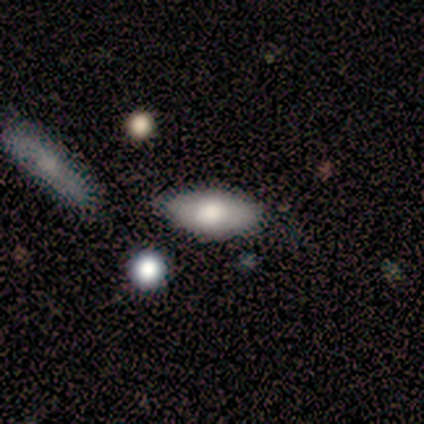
Consensus on every question: smooth or featured — smooth (100%); how rounded — in between (100%); merging — none (100%).